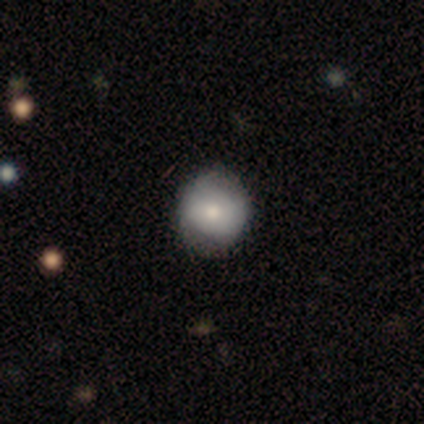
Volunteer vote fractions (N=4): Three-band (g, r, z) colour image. It shows a featured or disk galaxy (50%) with a weak bar (50%, tied with no), no spiral arms (100%) and a moderate central bulge (100%). Merging: none (100%).